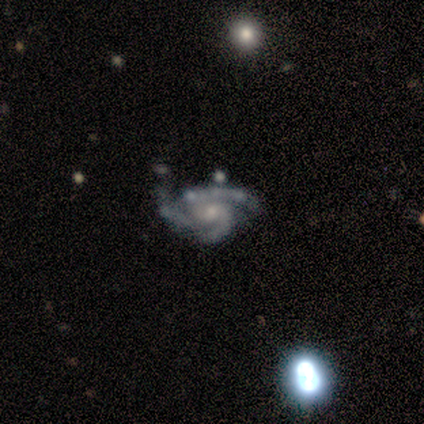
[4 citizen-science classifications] This is clearly a featured or disk galaxy (100%). It is clearly not viewed edge-on (100%). Bar: likely no (75%). Spiral arm pattern: clearly yes (100%). Spiral arm count: clearly 3 (100%). Spiral winding: possibly tight (50%, tied with medium). Central bulge: likely small (75%). Merging: likely minor disturbance (75%).